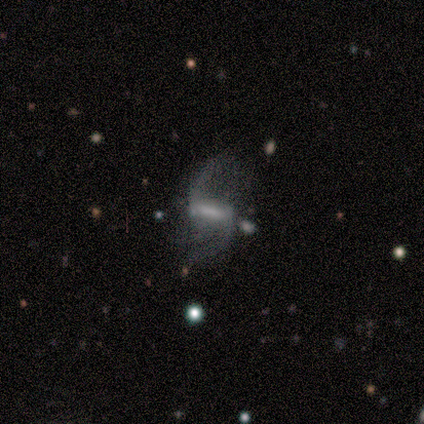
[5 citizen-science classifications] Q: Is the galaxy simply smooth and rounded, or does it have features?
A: featured or disk — 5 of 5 (100%).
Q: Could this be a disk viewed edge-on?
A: no — 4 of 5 (80%).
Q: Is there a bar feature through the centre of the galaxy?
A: strong — 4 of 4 (100%).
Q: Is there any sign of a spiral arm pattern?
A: yes — 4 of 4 (100%).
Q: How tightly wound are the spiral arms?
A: loose — 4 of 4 (100%).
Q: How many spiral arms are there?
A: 2 — 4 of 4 (100%).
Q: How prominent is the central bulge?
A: large — 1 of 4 (25%, tied with moderate, small and none).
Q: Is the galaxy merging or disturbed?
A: none — 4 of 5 (80%).